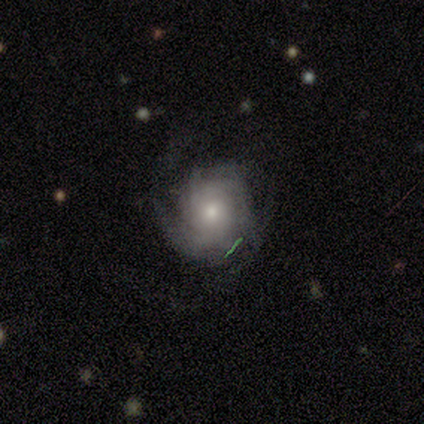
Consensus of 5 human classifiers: Smooth or featured? 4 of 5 (80%) said featured or disk. Edge-on disk? 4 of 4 (100%) said no. Bar? 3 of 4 (75%) said no. Spiral arms? 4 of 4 (100%) said yes. Spiral winding? 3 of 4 (75%) said tight. Spiral arm count? 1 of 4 (25%, tied with 3, more than 4 and can't tell) said 2. Bulge size? 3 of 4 (75%) said moderate. Merging? 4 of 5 (80%) said none.